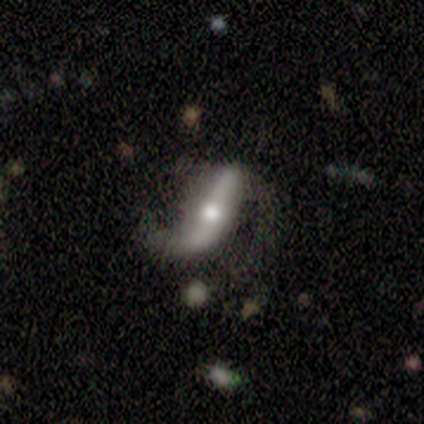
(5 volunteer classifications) Morphology: type=featured or disk (100%); edge-on=no (80%); bar=no (50%); spiral arms=yes (100%); winding=loose (100%); arm count=2 (75%); bulge=small (75%); merging=none (60%).